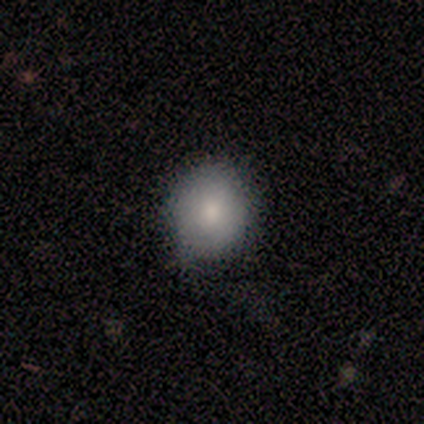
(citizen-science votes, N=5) smooth 80%, star or artifact 20%, featured or disk 0%. Down the decision tree: how rounded — round (50%, tied with in between); merging — none (50%, tied with minor disturbance).